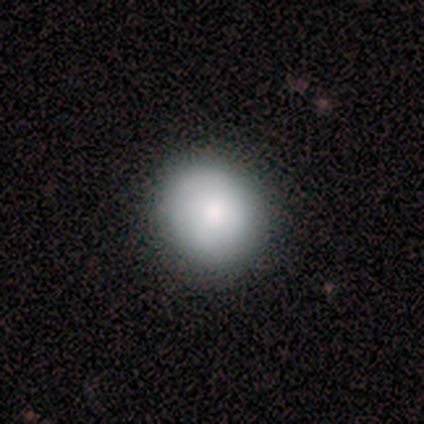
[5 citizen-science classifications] smooth 100%, featured or disk 0%, star or artifact 0%. Down the decision tree: how rounded — round (80%); merging — none (80%).